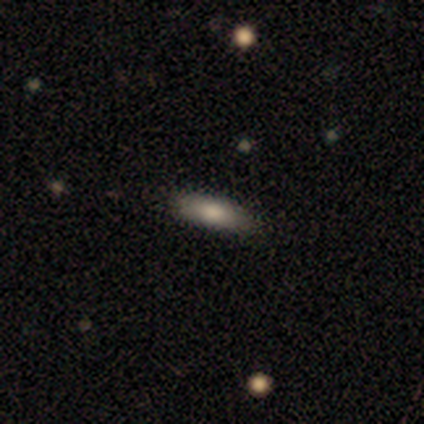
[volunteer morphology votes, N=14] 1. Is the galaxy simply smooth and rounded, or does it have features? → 57% smooth, 36% featured or disk, 7% star or artifact.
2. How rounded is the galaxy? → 50% in between (tied), 50% cigar-shaped (tied), 0% round.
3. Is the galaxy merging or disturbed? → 69% none, 23% minor disturbance, 8% major disturbance, 0% merger.